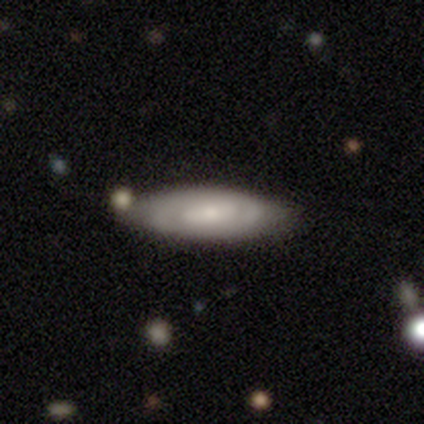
Morphology: type=smooth (60%); roundness=in between (100%); merging=none (75%).